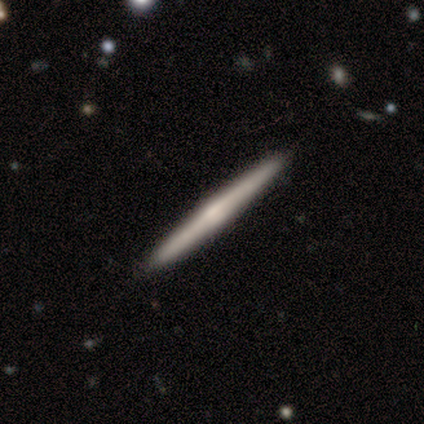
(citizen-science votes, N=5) Volunteers were most divided on "smooth or featured": featured or disk: 60%, smooth: 40%, star or artifact: 0%. More confident: edge-on disk — yes (100%); merging — none (100%); edge-on bulge — rounded (67%).